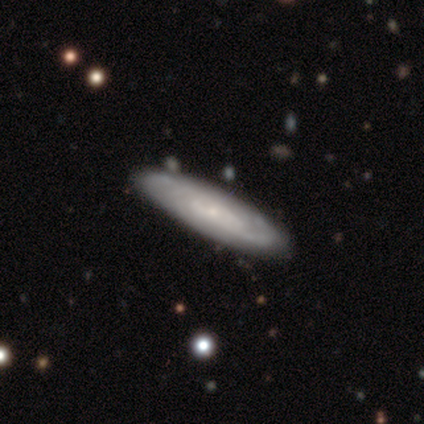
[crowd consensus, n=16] This appears to be a featured or disk galaxy (69%) with no bar (100%), tight (43%, tied with medium) spiral arms (88%) and a small central bulge (88%). Merging: none (88%).